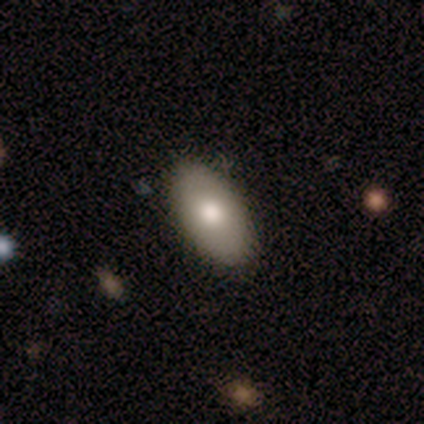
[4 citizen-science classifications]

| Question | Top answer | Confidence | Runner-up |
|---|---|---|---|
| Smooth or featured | smooth | 100% | — |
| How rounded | in between | 100% | — |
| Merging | none | 100% | — |